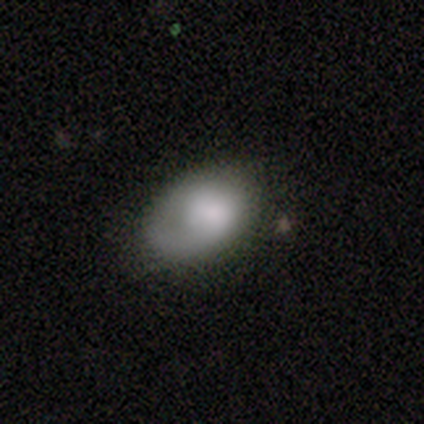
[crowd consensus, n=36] Smooth or featured? 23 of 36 (64%) said smooth. How rounded? 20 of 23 (87%) said in between. Merging? 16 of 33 (48%) said none.